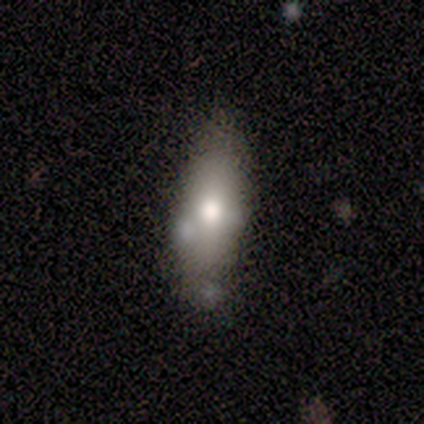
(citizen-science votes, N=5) smooth-or-featured: smooth: 80% | featured or disk: 20% | star or artifact: 0%
  how-rounded: in between: 100% | round: 0% | cigar-shaped: 0%
  merging: none: 60% | minor disturbance: 40% | major disturbance: 0% | merger: 0%